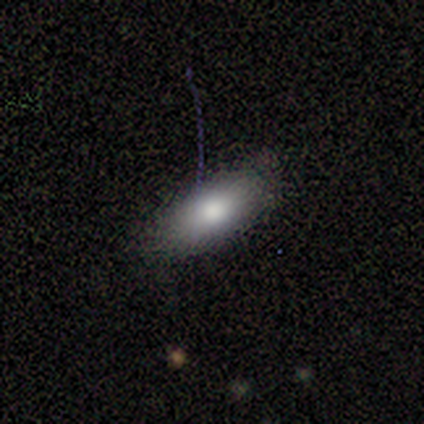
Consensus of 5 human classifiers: smooth 80%, featured or disk 20%, star or artifact 0%. Down the decision tree: how rounded — in between (75%); merging — none (100%).